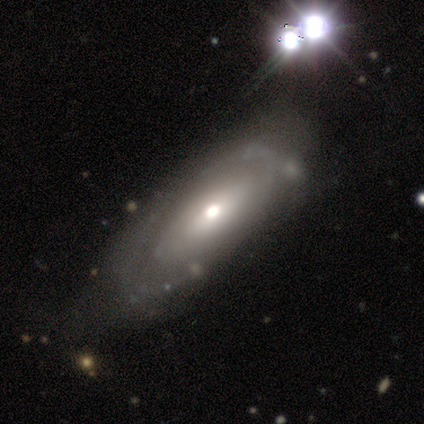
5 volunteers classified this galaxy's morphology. Smooth or featured? 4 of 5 (80%) said featured or disk. Edge-on disk? 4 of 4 (100%) said no. Bar? 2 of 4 (50%, tied with no) said weak. Spiral arms? 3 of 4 (75%) said yes. Spiral winding? 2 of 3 (67%) said tight. Spiral arm count? 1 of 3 (33%, tied with 3 and can't tell) said 2. Bulge size? 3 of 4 (75%) said moderate. Merging? 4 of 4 (100%) said none.